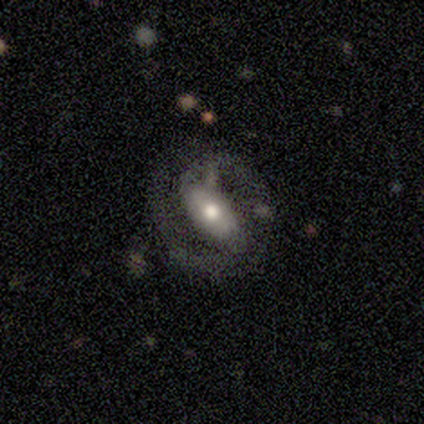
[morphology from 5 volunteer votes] type=featured or disk (80%); edge-on=no (100%); bar=no (50%); spiral arms=yes (100%); winding=medium (75%); arm count=2 (100%); bulge=moderate (100%); merging=none (60%).